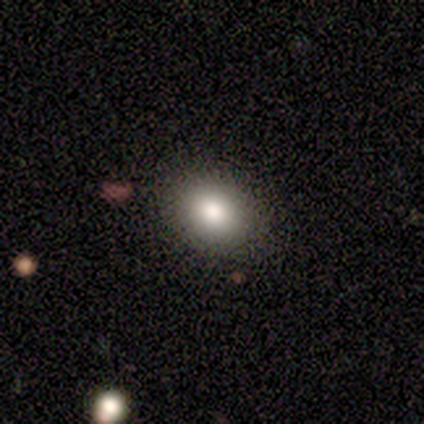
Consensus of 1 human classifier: A featured or disk galaxy (100%) with no bar (100%), no spiral arms (100%) and a large central bulge (100%).

Vote fractions:
- Smooth or featured? featured or disk: 100% / smooth: 0% / star or artifact: 0%
- Edge-on disk? no: 100% / yes: 0%
- Bar? no: 100% / strong: 0% / weak: 0%
- Spiral arms? no: 100% / yes: 0%
- Bulge size? large: 100% / dominant: 0% / moderate: 0% / small: 0% / none: 0%
- Merging? minor disturbance: 100% / none: 0% / major disturbance: 0% / merger: 0%